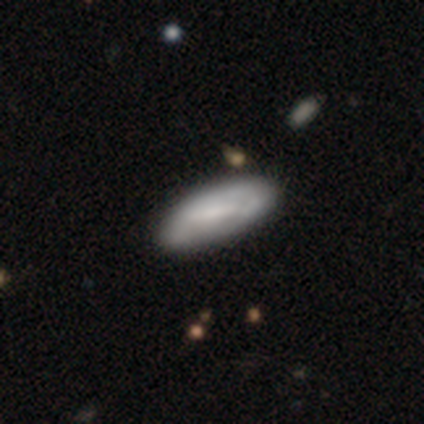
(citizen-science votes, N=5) A smooth galaxy with no disk features (80%) that is in between round and cigar-shaped (75%). Merging: none (60%).